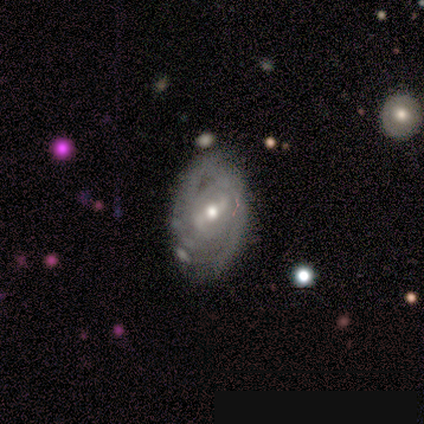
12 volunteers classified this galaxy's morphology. Overall: featured or disk (92%). Edge-on disk: no (100%). Bar: weak (64%; strong 27%). Spiral arms: yes (82%). Spiral arm count: can't tell (78%). Spiral winding: tight (78%). Bulge size: moderate (55%; small 36%). Merging: none (58%; minor disturbance 33%).